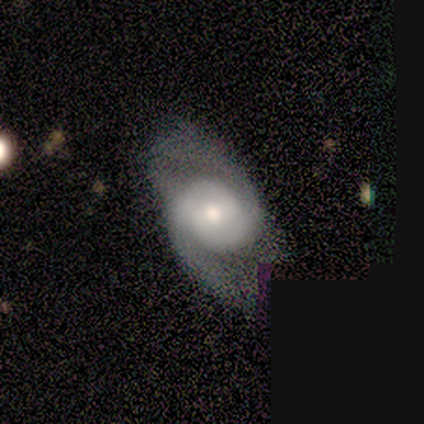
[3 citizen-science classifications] Volunteers were most divided on "smooth or featured" (3-way tie): smooth: 33%, featured or disk: 33%, star or artifact: 33%; "merging" (2-way tie): none: 50%, minor disturbance: 50%, major disturbance: 0%, merger: 0%. More confident: how rounded — in between (100%).